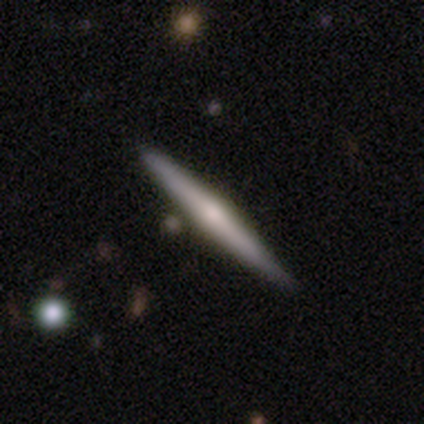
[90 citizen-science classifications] Overall: featured or disk (67%; smooth 28%). Edge-on disk: yes (100%). Edge-on bulge: rounded (75%). Merging: none (86%).